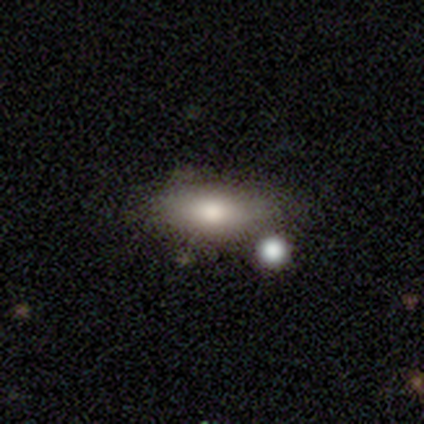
Overall: smooth (88%). How rounded: in between (86%). Merging: merger (50%).